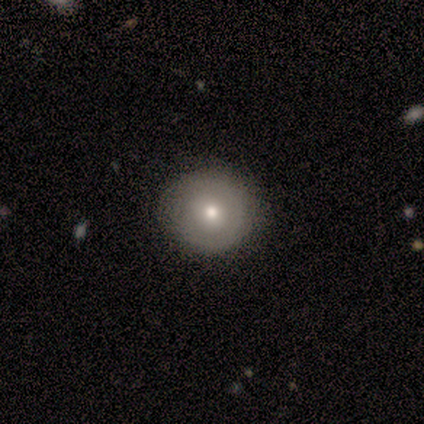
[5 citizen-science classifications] smooth 60%, featured or disk 40%, star or artifact 0%. Down the decision tree: how rounded — round (100%); merging — none (100%).